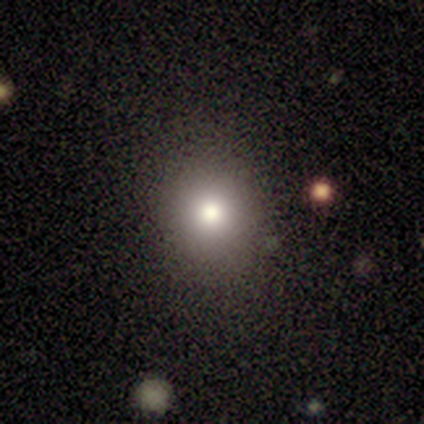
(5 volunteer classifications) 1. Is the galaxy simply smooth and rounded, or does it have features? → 40% featured or disk (tied), 40% star or artifact (tied), 20% smooth.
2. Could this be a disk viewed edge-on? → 100% no, 0% yes.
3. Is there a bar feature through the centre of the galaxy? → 100% no, 0% strong, 0% weak.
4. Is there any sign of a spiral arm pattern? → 100% no, 0% yes.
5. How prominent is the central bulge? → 50% large (tied), 50% moderate (tied), 0% dominant, 0% small, 0% none.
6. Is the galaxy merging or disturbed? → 67% minor disturbance, 33% none, 0% major disturbance, 0% merger.